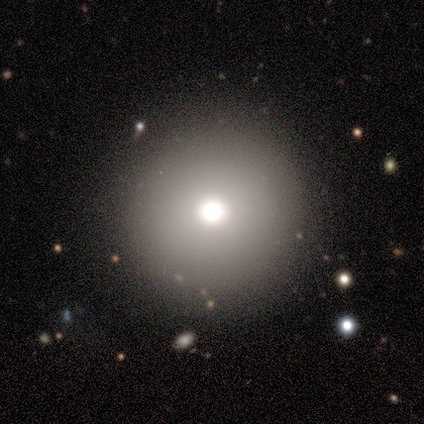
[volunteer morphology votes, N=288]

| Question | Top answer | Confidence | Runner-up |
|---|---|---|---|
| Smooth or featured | smooth | 70% | star or artifact (23%) |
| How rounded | round | 99% | in between (1%) |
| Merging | none | 80% | minor disturbance (7%) |